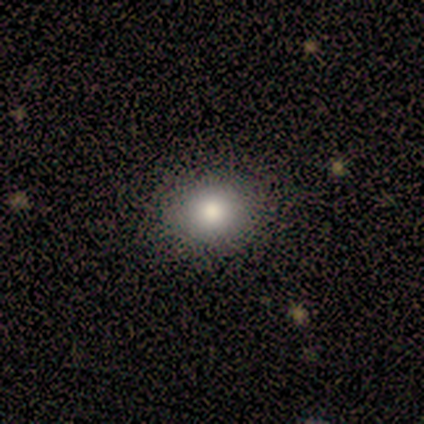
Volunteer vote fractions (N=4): A smooth galaxy with no disk features (100%) that is round (75%).

Vote fractions:
- Smooth or featured? smooth: 100% / featured or disk: 0% / star or artifact: 0%
- How rounded? round: 75% / in between: 25% / cigar-shaped: 0%
- Merging? none: 75% / minor disturbance: 25% / major disturbance: 0% / merger: 0%